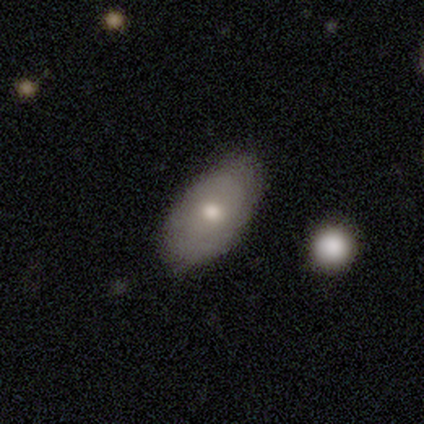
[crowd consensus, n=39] This is likely a smooth galaxy (77%). How rounded: clearly in between (87%). Merging: possibly none (55%).